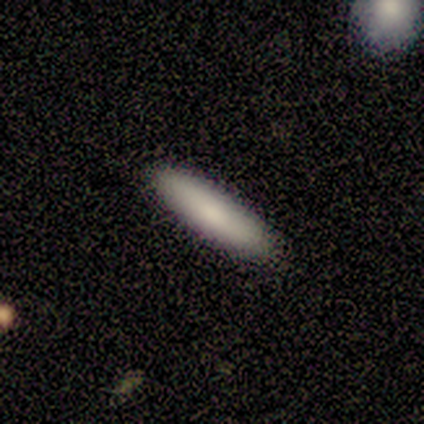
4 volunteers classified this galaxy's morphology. Q: Smooth or featured?
A: smooth (100%)
Q: How rounded?
A: cigar-shaped (100%)
Q: Merging?
A: none (100%)